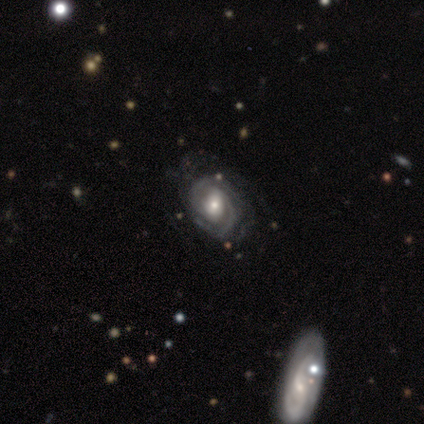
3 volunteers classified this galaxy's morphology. This is clearly a featured or disk galaxy (100%). It is clearly not viewed edge-on (100%). Bar: likely no (67%). Spiral arm pattern: clearly yes (100%). Spiral arm count: likely 2 (67%). Spiral winding: clearly tight (100%). Central bulge: likely moderate (67%). Merging: likely none (67%).